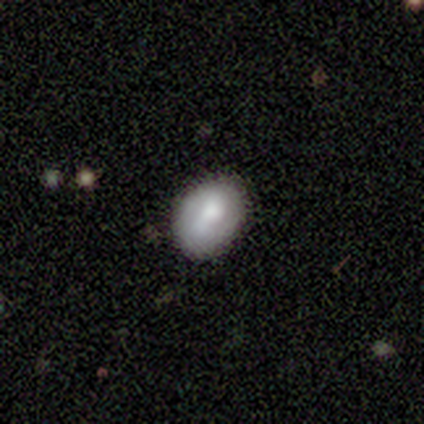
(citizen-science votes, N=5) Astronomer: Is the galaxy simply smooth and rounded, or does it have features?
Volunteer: smooth — 80%.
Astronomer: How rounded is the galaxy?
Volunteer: round — 50%, tied with in between at 50%.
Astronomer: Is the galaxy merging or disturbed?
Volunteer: none — 60% (runner-up: minor disturbance, 40%).